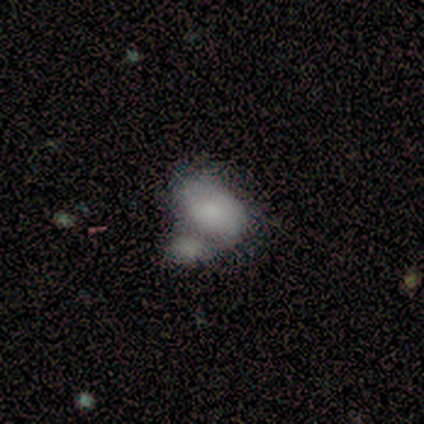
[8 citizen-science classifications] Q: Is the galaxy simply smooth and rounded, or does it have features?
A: smooth — 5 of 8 (62%).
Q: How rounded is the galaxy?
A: in between — 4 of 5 (80%).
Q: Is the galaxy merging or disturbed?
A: merger — 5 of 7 (71%).